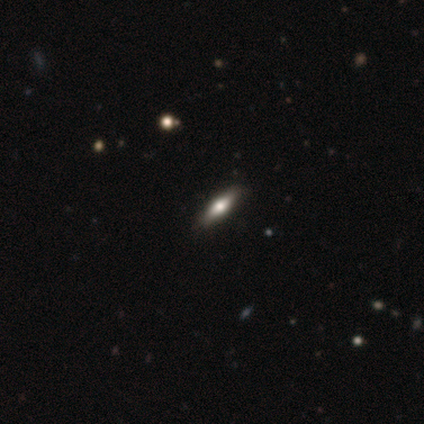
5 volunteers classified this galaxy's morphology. Smooth or featured? smooth (80%)
How rounded? in between (75%)
Merging? none (100%)